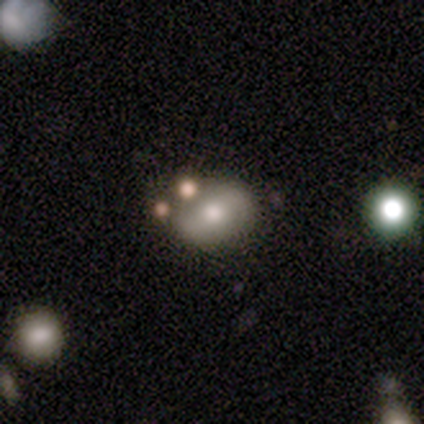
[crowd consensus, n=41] smooth_or_featured: smooth (p=0.51) [alt: featured or disk p=0.37]
how_rounded: in between (p=0.76) [alt: round p=0.24]
merging: none (p=0.69) [alt: minor disturbance p=0.14]